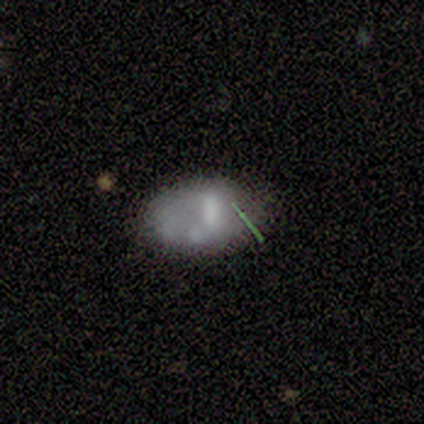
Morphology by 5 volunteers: smooth-or-featured: featured or disk: 60% | smooth: 40% | star or artifact: 0%
  disk-edge-on: no: 100% | yes: 0%
    bar: strong: 33% (tied) | weak: 33% (tied) | no: 33% (tied)
    has-spiral-arms: no: 67% | yes: 33%
    bulge-size: none: 67% | large: 33% | dominant: 0% | moderate: 0% | small: 0%
  merging: none: 60% | minor disturbance: 20% | merger: 20% | major disturbance: 0%